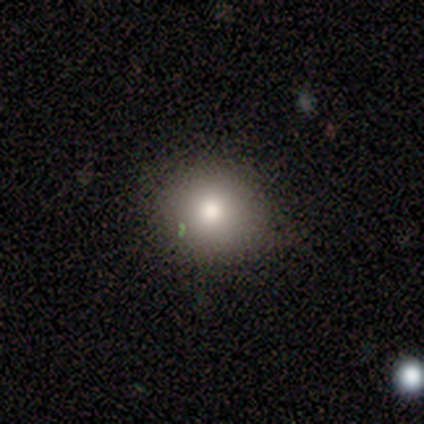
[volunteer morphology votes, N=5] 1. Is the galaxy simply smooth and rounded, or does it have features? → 60% smooth, 20% featured or disk, 20% star or artifact.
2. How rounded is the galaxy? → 100% round, 0% in between, 0% cigar-shaped.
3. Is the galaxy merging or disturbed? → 75% none, 25% minor disturbance, 0% major disturbance, 0% merger.